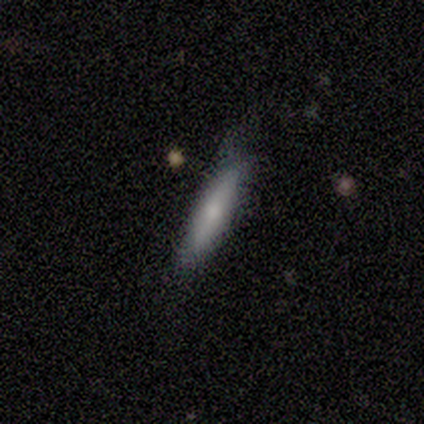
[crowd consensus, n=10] smooth 90%, featured or disk 10%, star or artifact 0%. Down the decision tree: how rounded — cigar-shaped (89%); merging — none (50%, tied with minor disturbance).